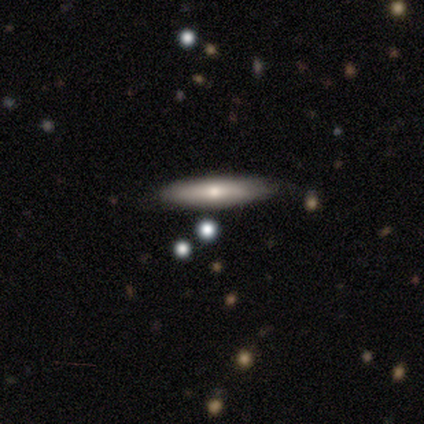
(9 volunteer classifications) smooth-or-featured: smooth: 56% | featured or disk: 33% | star or artifact: 11%
  how-rounded: cigar-shaped: 80% | in between: 20% | round: 0%
  merging: none: 88% | minor disturbance: 12% | major disturbance: 0% | merger: 0%